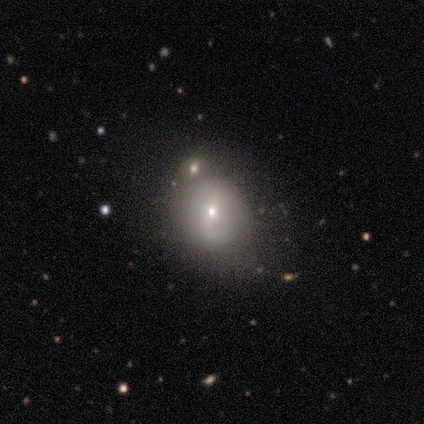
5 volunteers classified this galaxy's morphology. Smooth or featured? 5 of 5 (100%) said featured or disk. Edge-on disk? 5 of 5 (100%) said no. Bar? 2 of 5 (40%, tied with no) said weak. Spiral arms? 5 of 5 (100%) said no. Bulge size? 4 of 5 (80%) said small. Merging? 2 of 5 (40%) said merger.